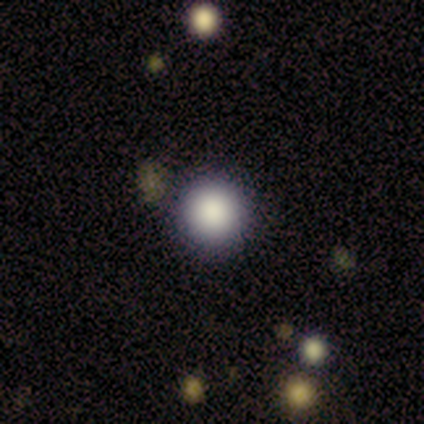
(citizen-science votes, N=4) A smooth galaxy with no disk features (100%) that is round (100%).

Vote fractions:
- Smooth or featured? smooth: 100% / featured or disk: 0% / star or artifact: 0%
- How rounded? round: 100% / in between: 0% / cigar-shaped: 0%
- Merging? none: 100% / minor disturbance: 0% / major disturbance: 0% / merger: 0%